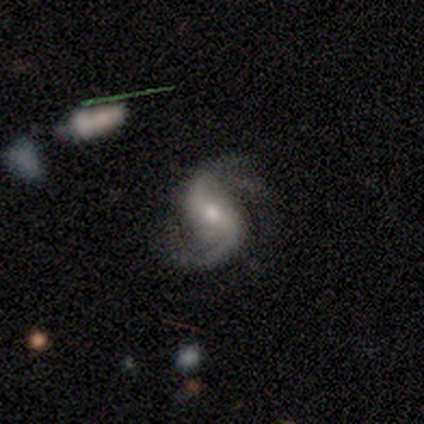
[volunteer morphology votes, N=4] Overall: featured or disk (100%). Edge-on disk: no (100%). Bar: strong (75%). Spiral arms: yes (100%). Spiral arm count: 2 (75%). Spiral winding: medium (50%, tied with loose). Bulge size: small (75%). Merging: none (75%).